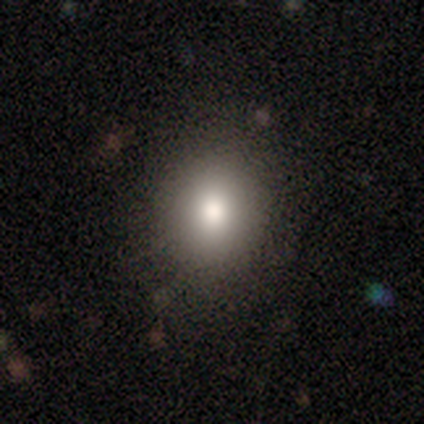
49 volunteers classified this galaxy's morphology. Smooth or featured? 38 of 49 (78%) said smooth. How rounded? 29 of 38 (76%) said round. Merging? 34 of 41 (83%) said none.